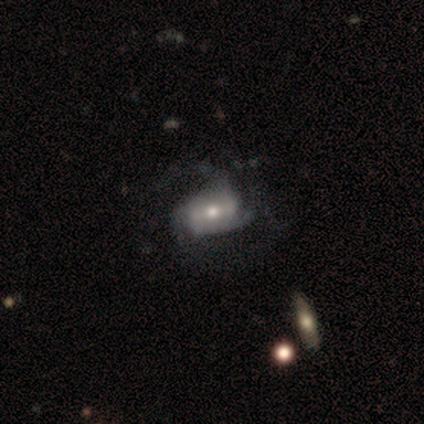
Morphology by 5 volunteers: This appears to be a featured or disk galaxy (80%) with a strong bar (50%, tied with no), 3 (50%) medium (50%) spiral arms (100%) and a moderate central bulge (75%). Merging: minor disturbance (60%).